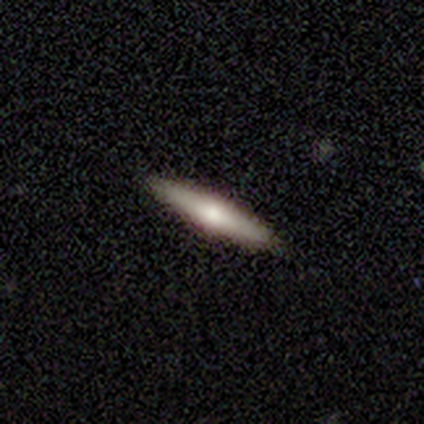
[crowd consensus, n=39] Smooth or featured? smooth (54%)
How rounded? cigar-shaped (90%)
Merging? none (97%)